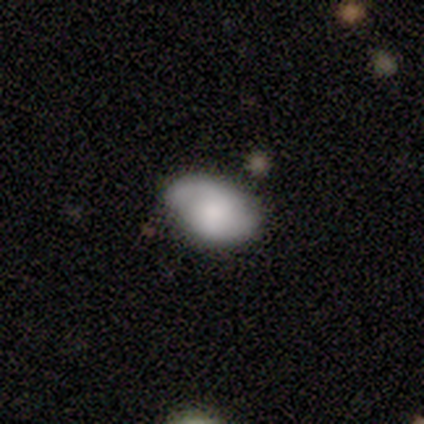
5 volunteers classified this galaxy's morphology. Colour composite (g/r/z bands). It shows a smooth galaxy with no disk features (60%) that is in between round and cigar-shaped (100%). Merging: none (60%).